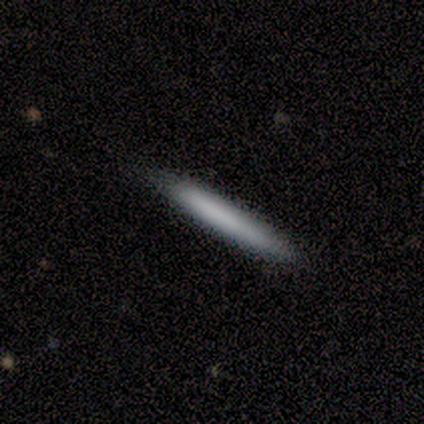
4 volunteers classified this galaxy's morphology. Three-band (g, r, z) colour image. It shows a smooth galaxy with no disk features (75%) that is cigar-shaped (100%). Merging: none (50%, tied with minor disturbance).